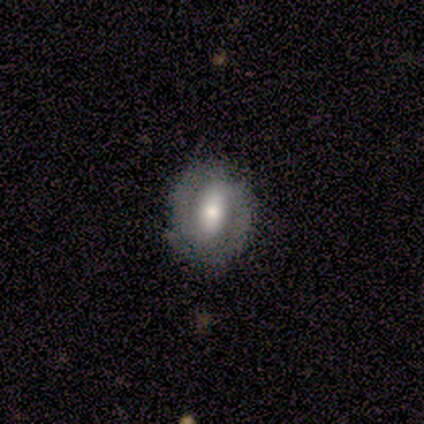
Smooth or featured? smooth (50%)
How rounded? round (60%)
Merging? none (100%)